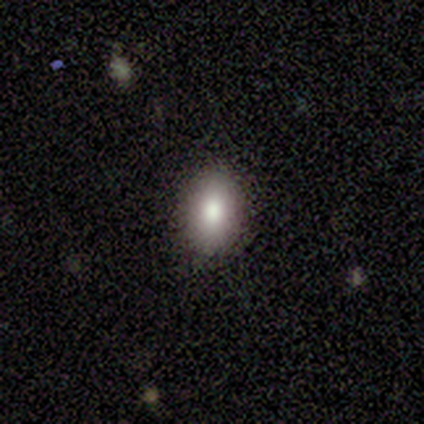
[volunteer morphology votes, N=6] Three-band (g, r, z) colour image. It shows a smooth galaxy with no disk features (100%) that is in between round and cigar-shaped (100%). Merging: none (83%).